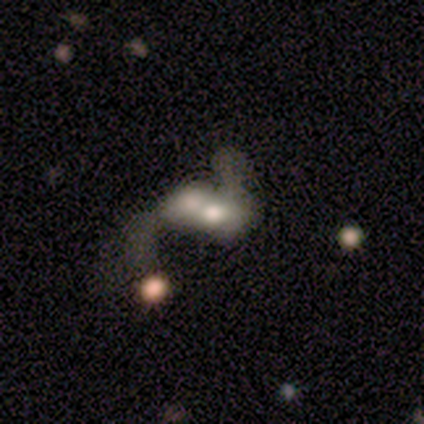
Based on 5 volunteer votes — This appears to be a smooth galaxy with no disk features (40%, tied with star or artifact) that is in between round and cigar-shaped (100%). Merging: merger (67%).